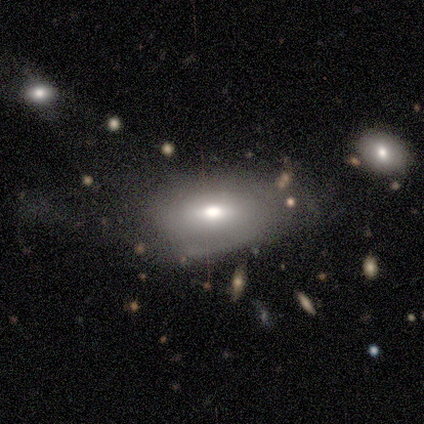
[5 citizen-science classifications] Q: Smooth or featured?
A: smooth (60%); runner-up: star or artifact (40%)
Q: How rounded?
A: in between (100%)
Q: Merging?
A: none (67%); runner-up: major disturbance (33%)